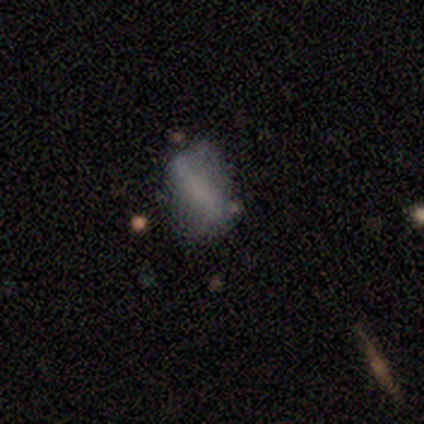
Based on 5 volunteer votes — Morphology: type=smooth (40%, tied with featured or disk); roundness=in between (50%, tied with cigar-shaped); merging=none (50%).